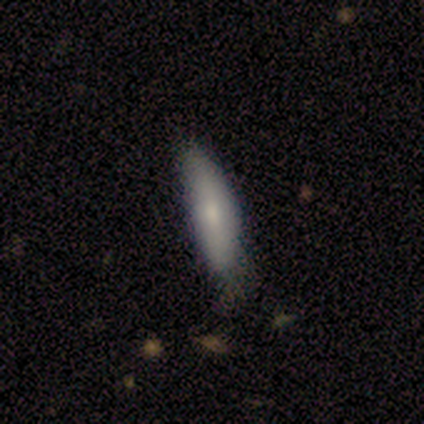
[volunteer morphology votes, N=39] type=smooth (85%); roundness=cigar-shaped (55%); merging=none (59%).